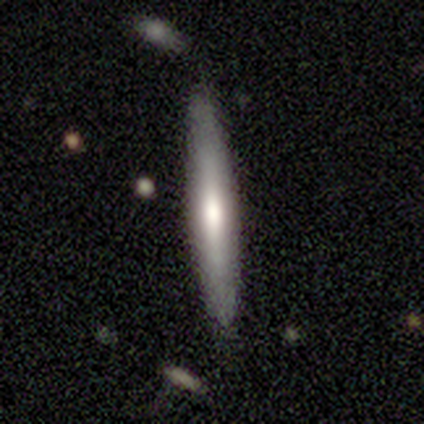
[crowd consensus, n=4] A featured or disk galaxy (75%) viewed edge-on (100%) with a rounded central bulge (67%).

Vote fractions:
- Smooth or featured? featured or disk: 75% / smooth: 25% / star or artifact: 0%
- Edge-on disk? yes: 100% / no: 0%
- Edge-on bulge? rounded: 67% / none: 33% / boxy: 0%
- Merging? none: 75% / minor disturbance: 25% / major disturbance: 0% / merger: 0%